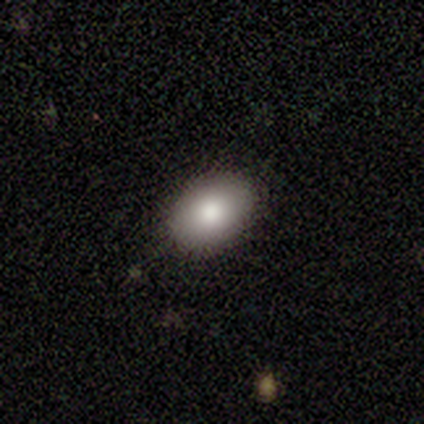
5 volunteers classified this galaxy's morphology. smooth-or-featured: smooth: 100% | featured or disk: 0% | star or artifact: 0%
  how-rounded: in between: 80% | round: 20% | cigar-shaped: 0%
  merging: none: 100% | minor disturbance: 0% | major disturbance: 0% | merger: 0%